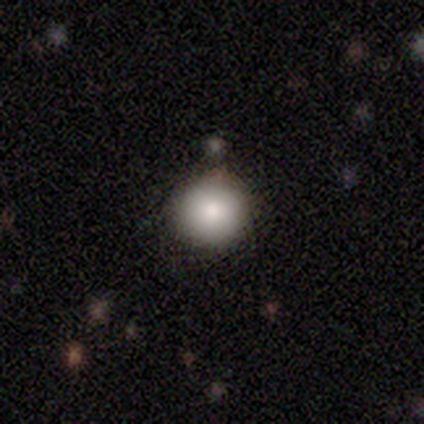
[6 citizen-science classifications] Smooth or featured: smooth — 100%
How rounded: round — 100%
Merging: none — 83% (major disturbance — 17%)